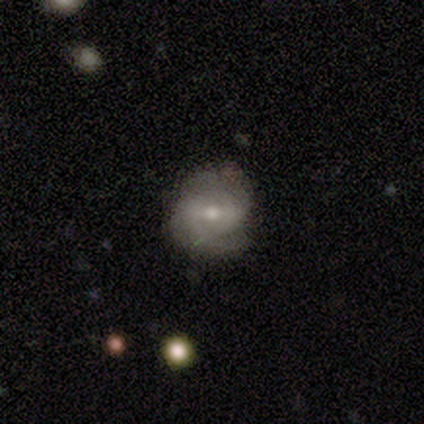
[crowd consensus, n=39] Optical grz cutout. It shows a featured or disk galaxy (56%) with a weak bar (70%), 2 (47%) medium (59%) spiral arms (85%) and a moderate central bulge (50%, tied with small). Merging: none (74%).